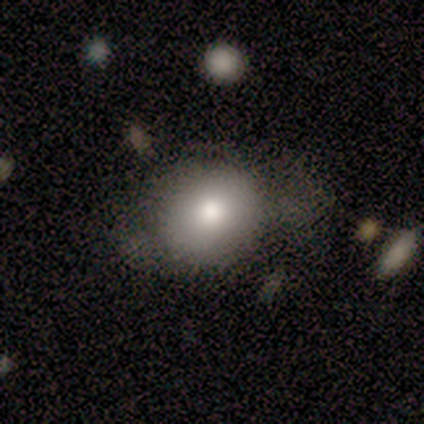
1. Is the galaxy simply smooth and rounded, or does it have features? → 80% smooth, 20% featured or disk, 0% star or artifact.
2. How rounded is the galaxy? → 50% round (tied), 50% in between (tied), 0% cigar-shaped.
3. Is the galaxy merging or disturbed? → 80% none, 20% minor disturbance, 0% major disturbance, 0% merger.